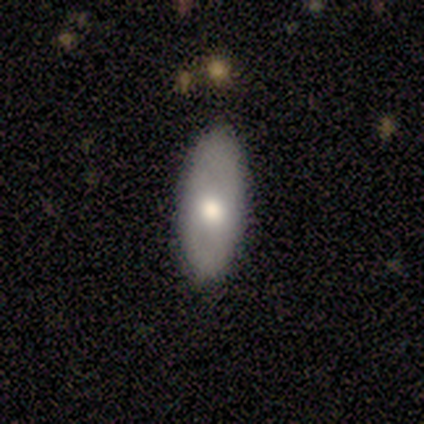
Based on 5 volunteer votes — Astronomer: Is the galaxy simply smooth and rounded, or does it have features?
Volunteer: smooth — 60% (runner-up: featured or disk, 40%).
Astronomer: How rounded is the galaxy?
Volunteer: in between — 100%.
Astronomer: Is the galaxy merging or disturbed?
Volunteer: none — 100%.